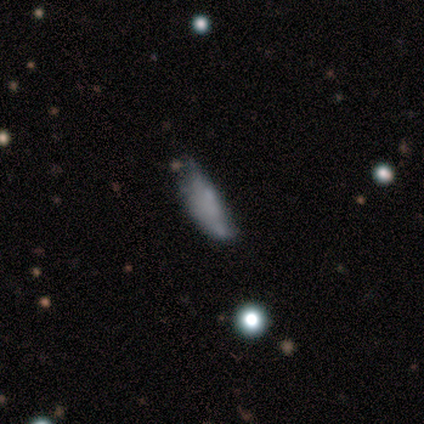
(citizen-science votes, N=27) This is marginally a smooth galaxy (44%). How rounded: possibly in between (50%, tied with cigar-shaped). Merging: possibly none (50%).